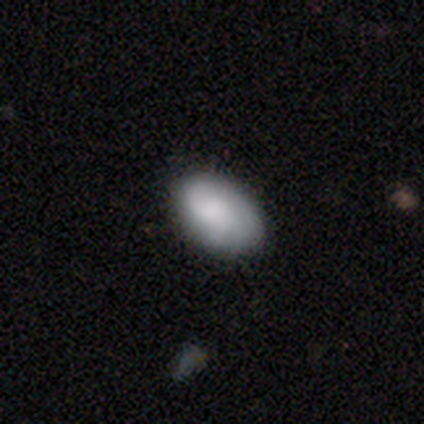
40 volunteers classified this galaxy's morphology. Volunteers were most divided on "smooth or featured": smooth: 52%, featured or disk: 35%, star or artifact: 12%. More confident: how rounded — in between (86%); merging — none (69%).